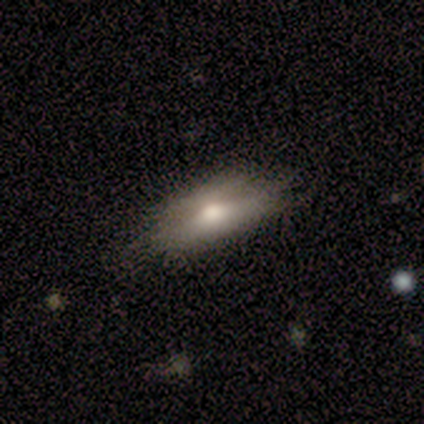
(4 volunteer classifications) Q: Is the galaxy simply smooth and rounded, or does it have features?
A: smooth — 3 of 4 (75%).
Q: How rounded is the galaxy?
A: in between — 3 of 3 (100%).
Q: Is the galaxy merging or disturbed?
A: none — 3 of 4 (75%).